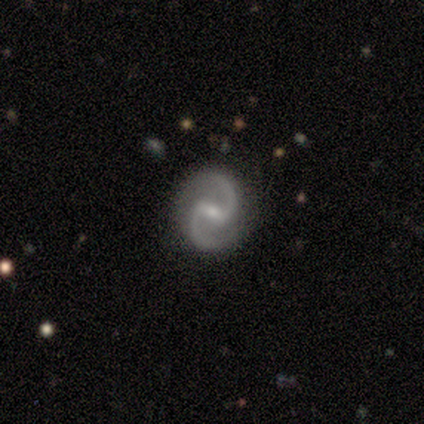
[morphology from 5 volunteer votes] smooth_or_featured: featured or disk (p=1.00)
disk_edge_on: no (p=1.00)
bar: weak (p=0.60) [alt: strong p=0.40]
has_spiral_arms: yes (p=0.80) [alt: no p=0.20]
spiral_winding: medium (p=0.50) [tied with: loose p=0.50]
spiral_arm_count: 2 (p=1.00)
bulge_size: small (p=0.60) [alt: moderate p=0.20]
merging: none (p=0.60) [alt: minor disturbance p=0.20]